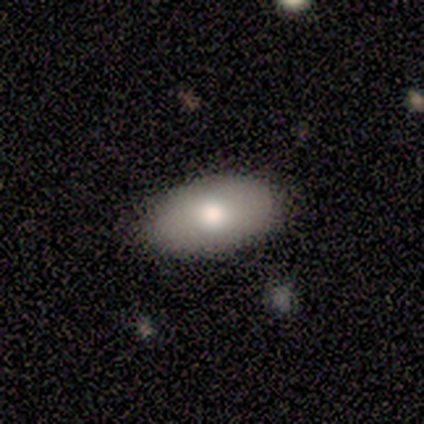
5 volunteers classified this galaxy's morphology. A smooth galaxy with no disk features (80%) that is in between round and cigar-shaped (100%). Merging: none (100%).